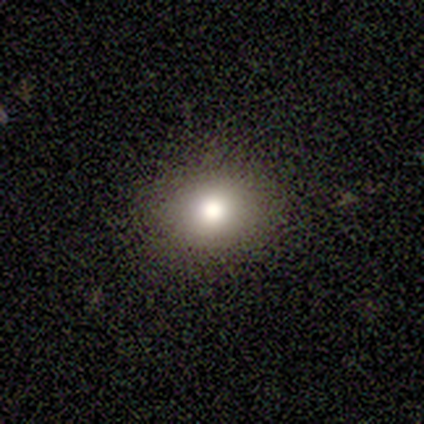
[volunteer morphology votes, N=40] smooth_or_featured: smooth (p=0.88) [alt: featured or disk p=0.07]
how_rounded: round (p=0.49) [tied with: in between p=0.49]
merging: none (p=1.00)